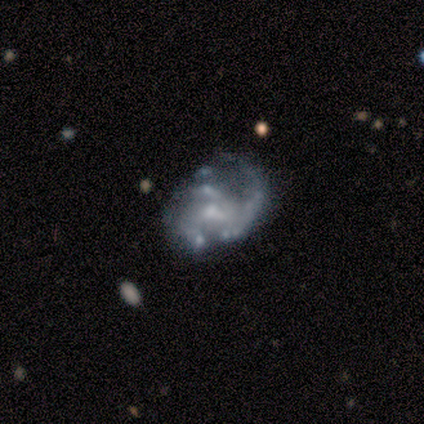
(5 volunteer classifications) This is clearly a featured or disk galaxy (80%). It is clearly not viewed edge-on (100%). Bar: possibly no (50%). Spiral arm pattern: likely no (75%). Central bulge: possibly small (50%). Merging: possibly none (50%).